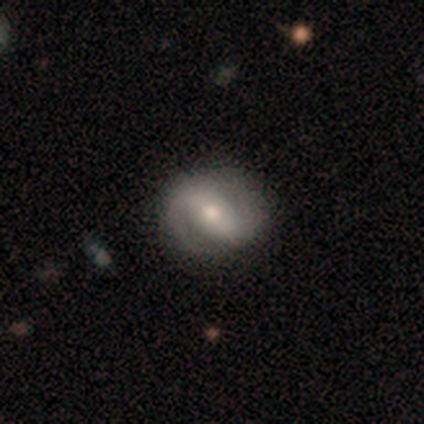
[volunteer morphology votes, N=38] Volunteers were most divided on "spiral winding": medium: 39%, tight: 36%, loose: 25%. Remaining: edge-on disk — no (100%); spiral arm count — 2 (100%); spiral arms — yes (97%); bulge size — moderate (79%); smooth or featured — featured or disk (76%); merging — none (54%); bar — strong (48%).